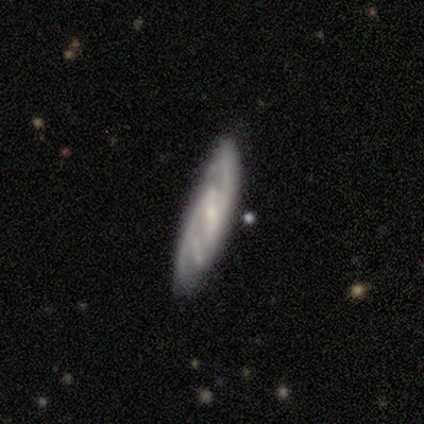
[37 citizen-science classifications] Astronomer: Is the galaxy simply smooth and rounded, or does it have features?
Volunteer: featured or disk — 89%.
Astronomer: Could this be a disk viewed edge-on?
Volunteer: no — 85%.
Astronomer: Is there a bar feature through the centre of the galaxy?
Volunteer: weak — 46% (runner-up: no, 29%).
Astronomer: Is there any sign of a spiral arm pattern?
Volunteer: yes — 96%.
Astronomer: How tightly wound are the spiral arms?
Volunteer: tight — 52% (runner-up: medium, 37%).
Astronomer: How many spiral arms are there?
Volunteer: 2 — 44% (runner-up: can't tell, 30%).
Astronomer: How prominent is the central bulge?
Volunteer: small — 71%.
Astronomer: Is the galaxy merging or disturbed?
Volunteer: none — 83%.